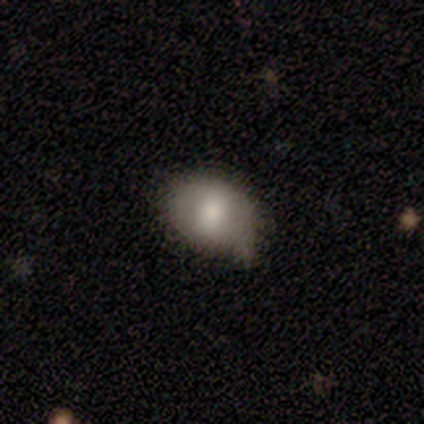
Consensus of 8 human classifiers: Smooth or featured? 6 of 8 (75%) said smooth. How rounded? 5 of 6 (83%) said in between. Merging? 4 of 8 (50%) said none.